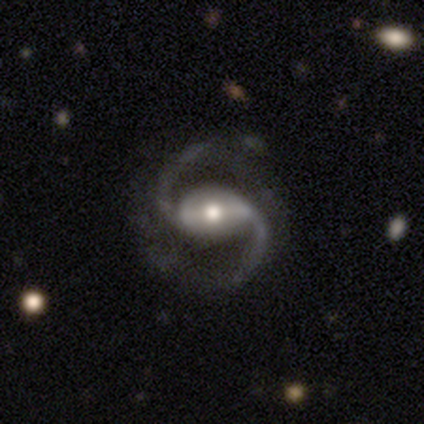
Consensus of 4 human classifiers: Volunteers were most divided on "bar" (2-way tie): strong: 50%, weak: 50%, no: 0%. More confident: smooth or featured — featured or disk (100%); edge-on disk — no (100%); spiral arms — yes (100%); spiral arm count — 2 (100%); spiral winding — medium (75%); bulge size — small (50%); merging — none (50%).